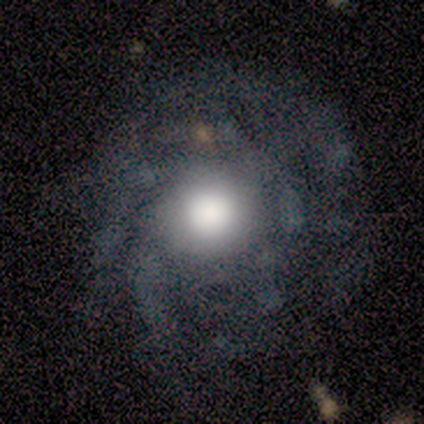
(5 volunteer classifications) Smooth or featured? 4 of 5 (80%) said featured or disk. Edge-on disk? 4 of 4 (100%) said no. Bar? 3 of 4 (75%) said no. Spiral arms? 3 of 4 (75%) said yes. Spiral winding? 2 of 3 (67%) said tight. Spiral arm count? 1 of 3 (33%, tied with more than 4 and can't tell) said 3. Bulge size? 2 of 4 (50%, tied with moderate) said large. Merging? 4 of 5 (80%) said none.